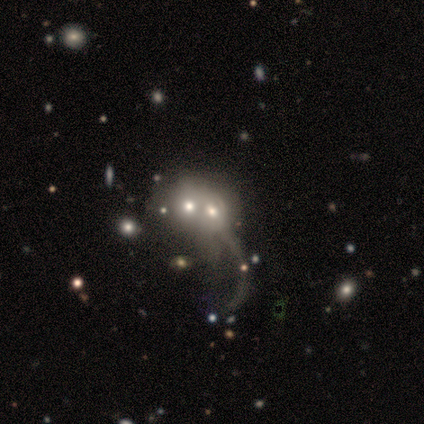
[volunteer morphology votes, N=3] Smooth or featured: star or artifact — 67% (featured or disk — 33%)